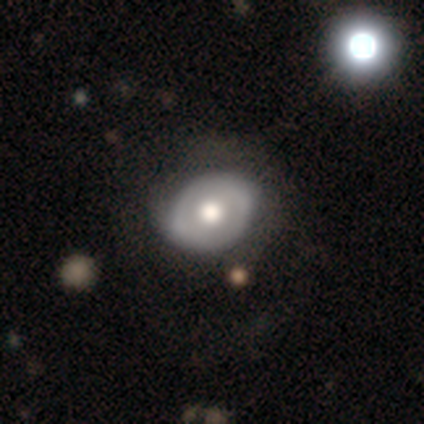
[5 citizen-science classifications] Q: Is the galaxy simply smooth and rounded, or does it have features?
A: smooth — 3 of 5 (60%).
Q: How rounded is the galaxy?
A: in between — 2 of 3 (67%).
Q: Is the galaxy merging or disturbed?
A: none — 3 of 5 (60%).